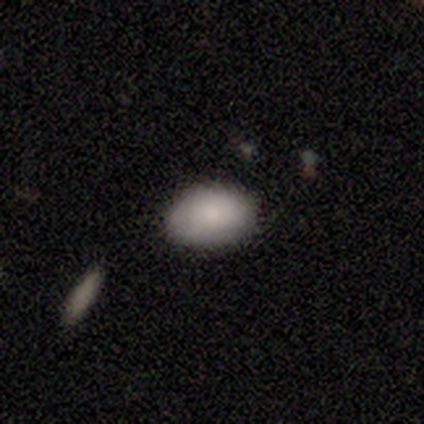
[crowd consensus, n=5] Q: Smooth or featured?
A: smooth (80%); runner-up: featured or disk (20%)
Q: How rounded?
A: round (50%); tied with: in between (50%)
Q: Merging?
A: none (80%); runner-up: minor disturbance (20%)